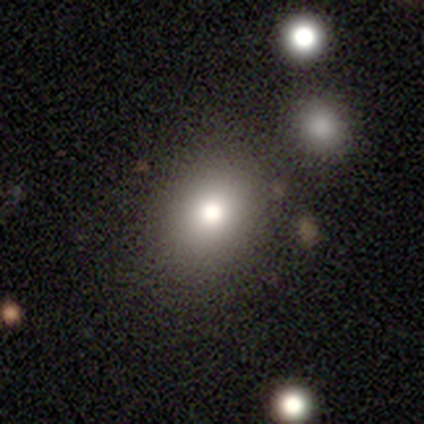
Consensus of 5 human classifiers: This appears to be a featured or disk galaxy (40%, tied with star or artifact) with no bar (100%), no spiral arms (100%) and a moderate central bulge (100%). Merging: none (100%).